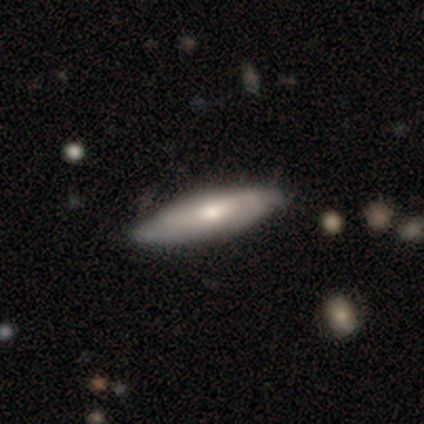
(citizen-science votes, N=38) This appears to be a featured or disk galaxy (55%) with no bar (50%), no spiral arms (67%) and a moderate central bulge (50%). Merging: none (41%).